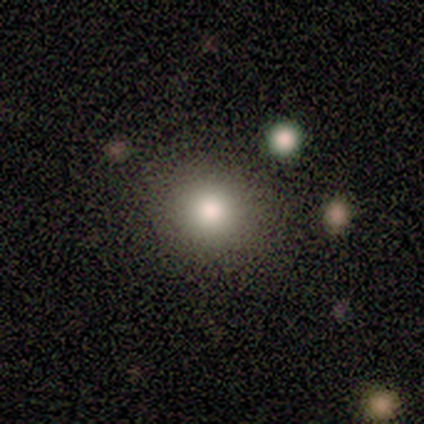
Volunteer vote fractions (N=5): smooth 80%, star or artifact 20%, featured or disk 0%. Down the decision tree: how rounded — round (50%, tied with in between); merging — none (75%).